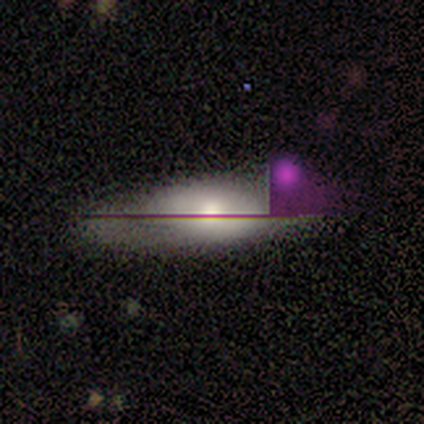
Smooth or featured? smooth (50%, tied with star or artifact)
How rounded? in between (100%)
Merging? none (50%, tied with minor disturbance)